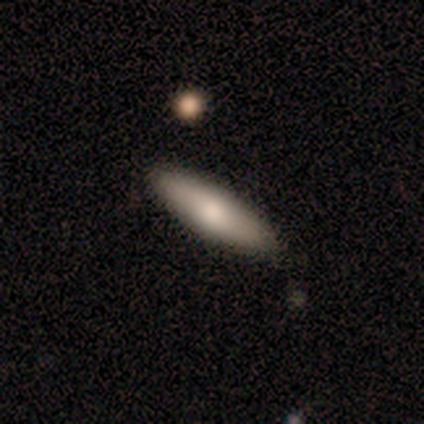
Smooth or featured: smooth — 75% (featured or disk — 17%)
How rounded: cigar-shaped — 59% (in between — 41%)
Merging: none — 94% (minor disturbance — 3%)